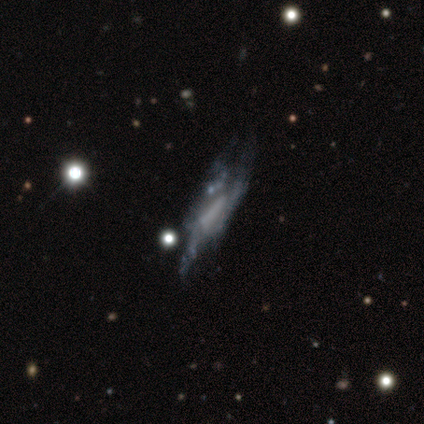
Overall: smooth (40%, tied with featured or disk). How rounded: in between (50%, tied with cigar-shaped). Merging: none (50%, tied with major disturbance).